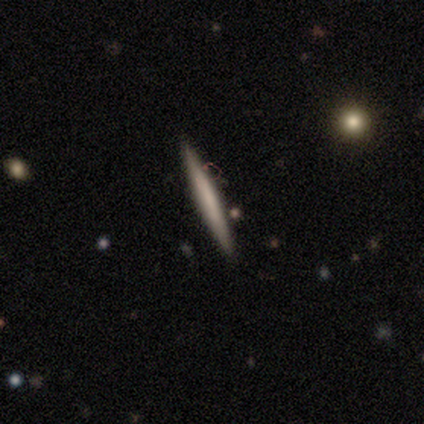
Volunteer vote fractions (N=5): Q: Smooth or featured?
A: featured or disk (60%); runner-up: smooth (40%)
Q: Edge-on disk?
A: yes (100%)
Q: Edge-on bulge?
A: none (67%); runner-up: rounded (33%)
Q: Merging?
A: none (80%); runner-up: minor disturbance (20%)